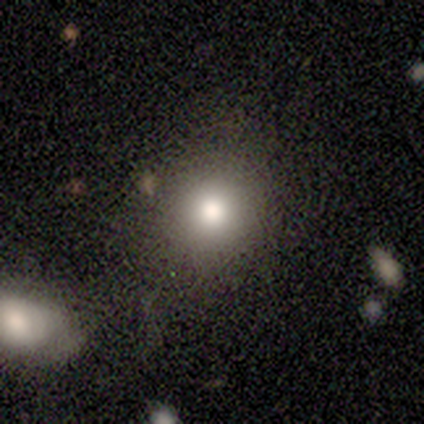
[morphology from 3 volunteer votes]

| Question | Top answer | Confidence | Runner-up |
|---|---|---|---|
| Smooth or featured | smooth | 67% | featured or disk (33%) |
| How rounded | round | 100% | — |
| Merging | none | 100% | — |